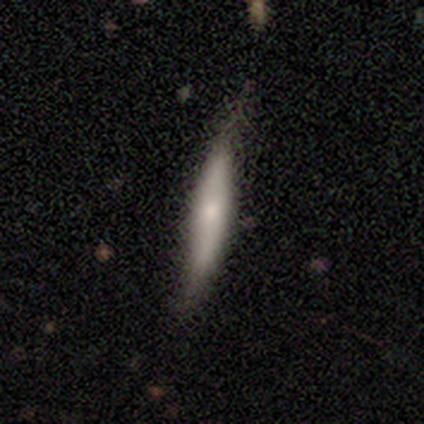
Smooth or featured? featured or disk (100%)
Edge-on disk? yes (100%)
Edge-on bulge? none (50%, tied with rounded)
Merging? none (50%, tied with minor disturbance)